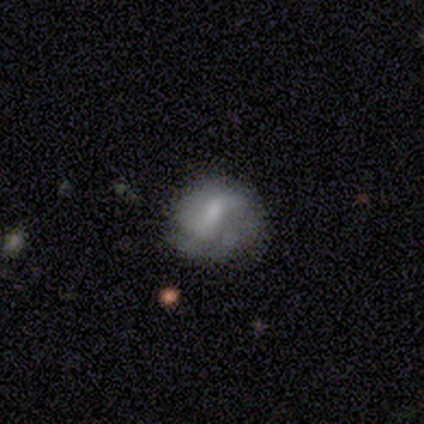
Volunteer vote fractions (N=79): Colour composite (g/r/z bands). It shows a featured or disk galaxy (51%) with a weak bar (47%), 2 (55%) medium (40%) spiral arms (53%) and a small central bulge (42%). Merging: none (39%).